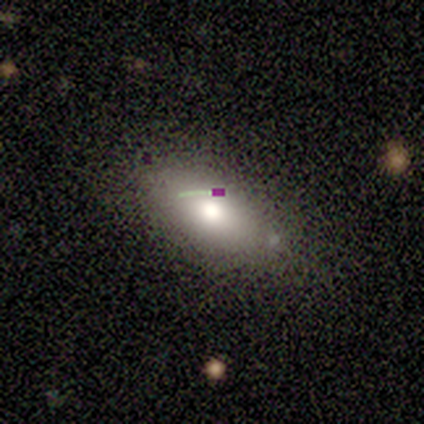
smooth_or_featured: smooth (p=0.40) [tied with: featured or disk p=0.40]
how_rounded: round (p=0.50) [tied with: in between p=0.50]
merging: none (p=1.00)